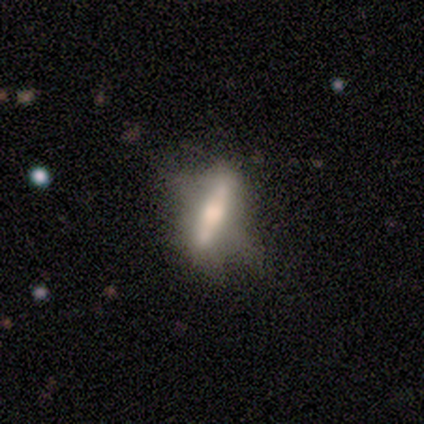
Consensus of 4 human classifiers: Smooth or featured? 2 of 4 (50%, tied with featured or disk) said smooth. How rounded? 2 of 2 (100%) said cigar-shaped. Merging? 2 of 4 (50%, tied with minor disturbance) said none.